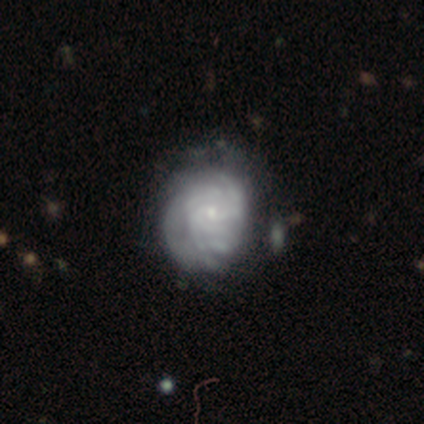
Smooth or featured?
  - featured or disk: 88% *
  - smooth: 8%
  - star or artifact: 5%
Edge-on disk?
  - no: 100% *
  - yes: 0%
Bar?
  - no: 69% *
  - weak: 29%
  - strong: 3%
Spiral arms?
  - yes: 94% *
  - no: 6%
Spiral winding?
  - tight: 82% *
  - medium: 12%
  - loose: 6%
Spiral arm count?
  - can't tell: 58% *
  - more than 4: 18%
  - 4: 15%
  - 3: 9%
  - 1: 0%
  - 2: 0%
Bulge size?
  - small: 86% *
  - moderate: 6%
  - none: 6%
  - dominant: 3%
  - large: 0%
Merging?
  - none: 50% *
  - minor disturbance: 24%
  - major disturbance: 11%
  - merger: 5%